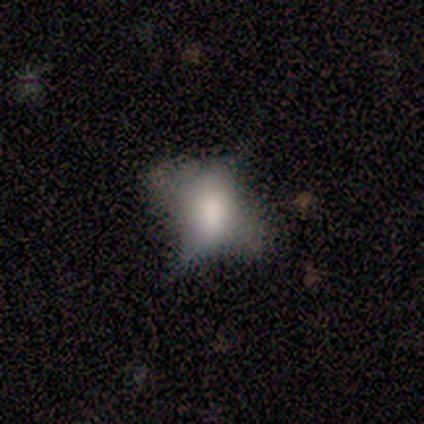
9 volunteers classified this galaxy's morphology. A smooth galaxy with no disk features (56%) that is in between round and cigar-shaped (80%).

Vote fractions:
- Smooth or featured? smooth: 56% / featured or disk: 22% / star or artifact: 22%
- How rounded? in between: 80% / round: 20% / cigar-shaped: 0%
- Merging? minor disturbance: 57% / none: 29% / major disturbance: 14% / merger: 0%